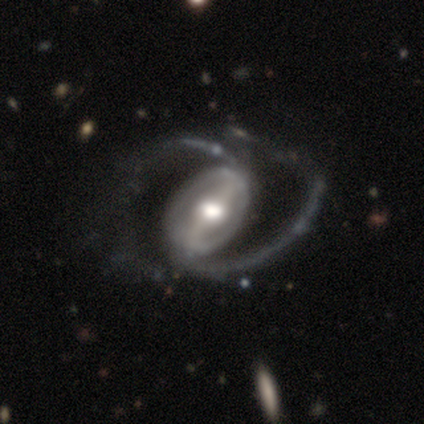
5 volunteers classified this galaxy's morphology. Smooth or featured? 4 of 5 (80%) said featured or disk. Edge-on disk? 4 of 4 (100%) said no. Bar? 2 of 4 (50%) said weak. Spiral arms? 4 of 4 (100%) said yes. Spiral winding? 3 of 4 (75%) said loose. Spiral arm count? 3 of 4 (75%) said 2. Bulge size? 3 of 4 (75%) said large. Merging? 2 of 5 (40%) said major disturbance.